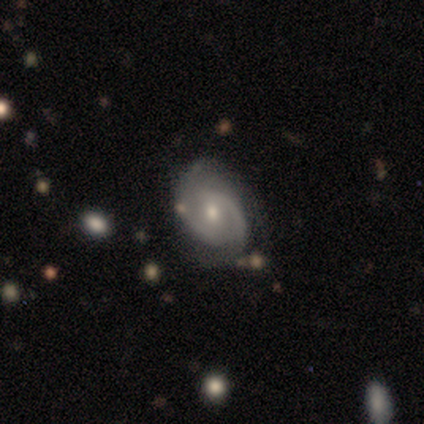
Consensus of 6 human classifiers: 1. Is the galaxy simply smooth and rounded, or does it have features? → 100% featured or disk, 0% smooth, 0% star or artifact.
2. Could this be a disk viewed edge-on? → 100% no, 0% yes.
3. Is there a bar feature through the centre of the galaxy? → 67% no, 17% strong, 17% weak.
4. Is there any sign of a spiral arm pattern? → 100% yes, 0% no.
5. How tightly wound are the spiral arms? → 50% tight, 33% medium, 17% loose.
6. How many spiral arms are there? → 50% 2, 33% 3, 17% can't tell, 0% 1, 0% 4, 0% more than 4.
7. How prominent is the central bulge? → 67% small, 33% moderate, 0% dominant, 0% large, 0% none.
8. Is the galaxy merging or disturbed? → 83% none, 17% minor disturbance, 0% major disturbance, 0% merger.